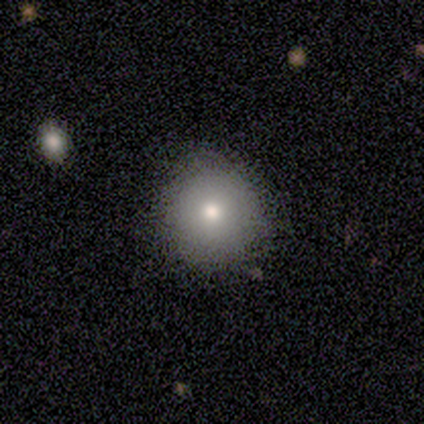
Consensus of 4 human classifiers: This appears to be a smooth galaxy with no disk features (75%) that is round (100%). Merging: none (67%).